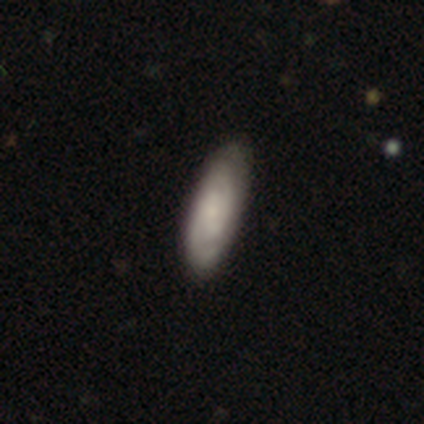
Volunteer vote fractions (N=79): Smooth or featured? featured or disk (53%)
Edge-on disk? no (95%)
Bar? no (57%)
Spiral arms? yes (92%)
Spiral winding? tight (62%)
Spiral arm count? 2 (68%)
Bulge size? small (62%)
Merging? none (36%)